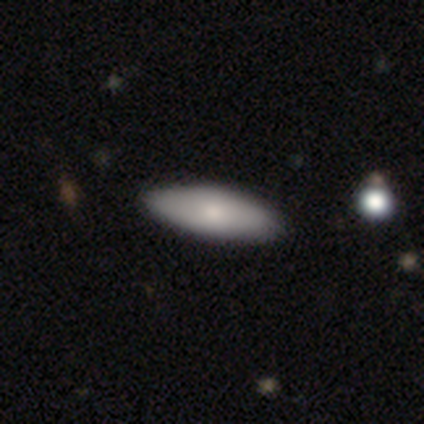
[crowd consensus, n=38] smooth_or_featured: smooth (p=0.84) [alt: featured or disk p=0.13]
how_rounded: in between (p=0.66) [alt: cigar-shaped p=0.31]
merging: none (p=0.70) [alt: minor disturbance p=0.03]